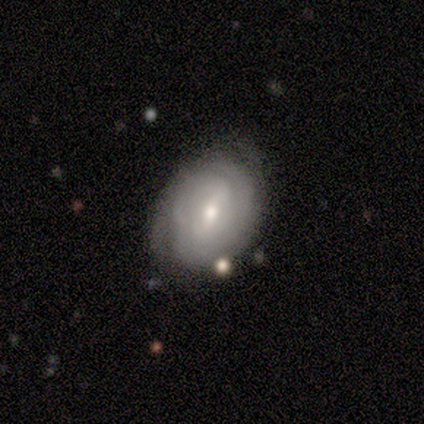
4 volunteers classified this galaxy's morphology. This is likely a featured or disk galaxy (75%). It is clearly not viewed edge-on (100%). Bar: clearly weak (100%). Spiral arm pattern: likely yes (67%). Spiral arm count: possibly 3 (50%, tied with more than 4). Spiral winding: clearly tight (100%). Central bulge: likely moderate (67%). Merging: likely none (75%).